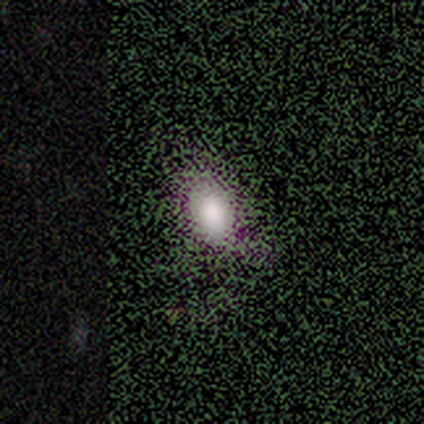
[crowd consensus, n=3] A smooth galaxy with no disk features (33%, tied with featured or disk and star or artifact) that is in between round and cigar-shaped (100%).

Vote fractions:
- Smooth or featured? smooth: 33% (tied) / featured or disk: 33% (tied) / star or artifact: 33% (tied)
- How rounded? in between: 100% / round: 0% / cigar-shaped: 0%
- Merging? none: 100% / minor disturbance: 0% / major disturbance: 0% / merger: 0%